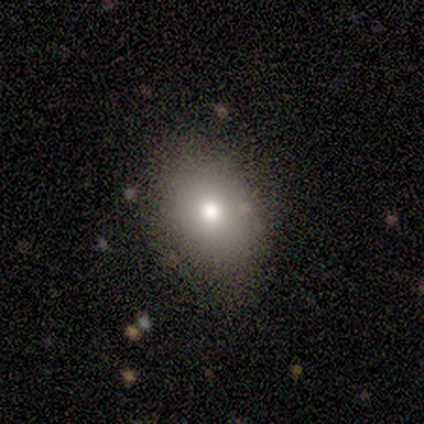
A smooth galaxy with no disk features (100%) that is in between round and cigar-shaped (60%). Merging: none (100%).